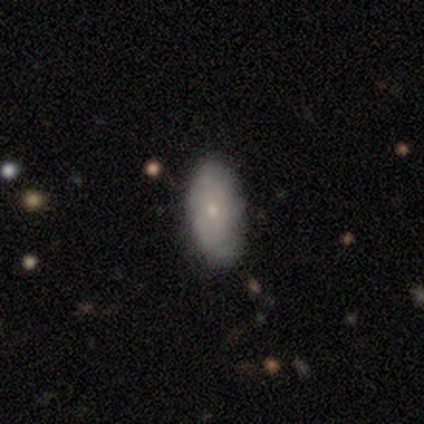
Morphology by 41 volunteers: Smooth or featured?
  - smooth: 68% *
  - featured or disk: 27%
  - star or artifact: 5%
How rounded?
  - in between: 89% *
  - round: 7%
  - cigar-shaped: 4%
Merging?
  - none: 74% *
  - minor disturbance: 23%
  - major disturbance: 3%
  - merger: 0%